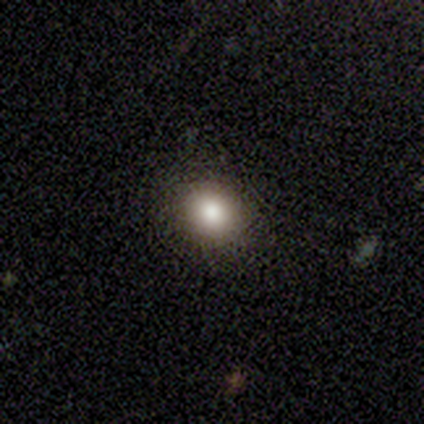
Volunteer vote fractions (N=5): Overall: smooth (80%). How rounded: round (50%, tied with in between). Merging: none (100%).